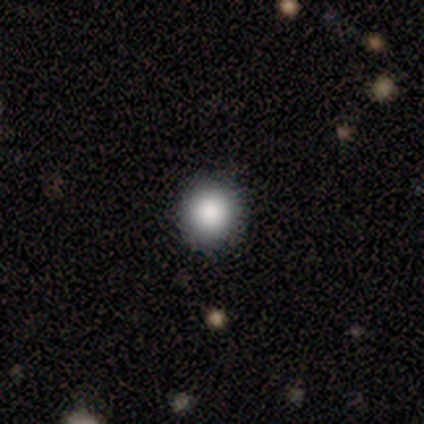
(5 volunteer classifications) This appears to be a smooth galaxy with no disk features (100%) that is round (100%). Merging: none (80%).